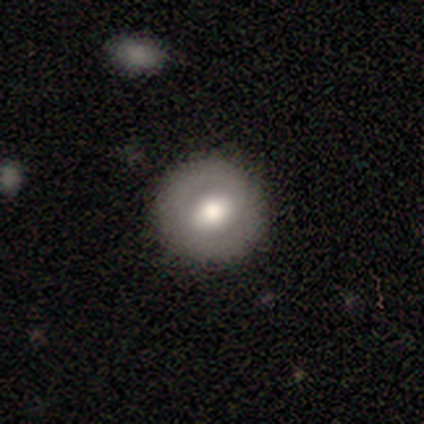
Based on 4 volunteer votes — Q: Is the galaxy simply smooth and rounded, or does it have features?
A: smooth — 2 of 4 (50%, tied with featured or disk).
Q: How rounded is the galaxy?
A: round — 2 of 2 (100%).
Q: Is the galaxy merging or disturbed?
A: none — 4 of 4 (100%).